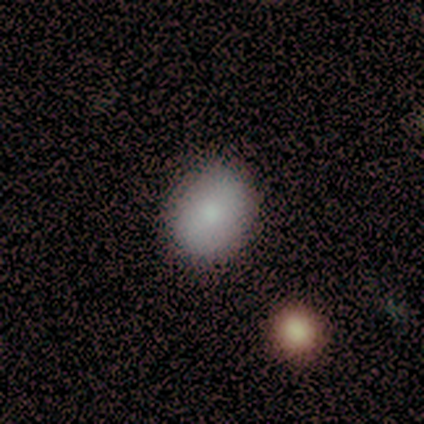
Morphology: type=smooth (82%); roundness=round (55%); merging=none (86%).